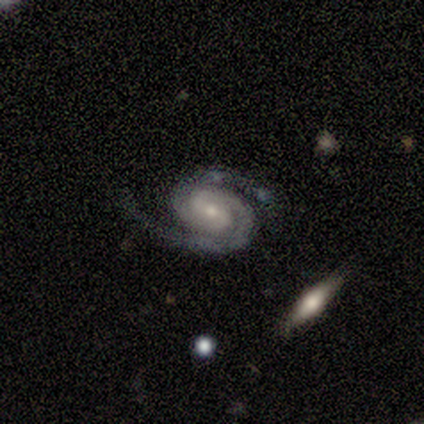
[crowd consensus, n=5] Smooth or featured? 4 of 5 (80%) said featured or disk. Edge-on disk? 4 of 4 (100%) said no. Bar? 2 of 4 (50%, tied with no) said weak. Spiral arms? 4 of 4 (100%) said yes. Spiral winding? 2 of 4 (50%, tied with medium) said tight. Spiral arm count? 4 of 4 (100%) said 2. Bulge size? 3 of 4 (75%) said small. Merging? 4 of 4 (100%) said none.